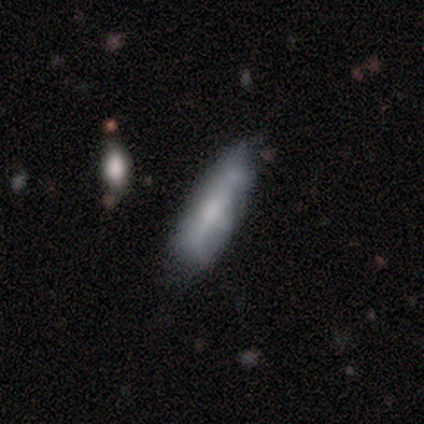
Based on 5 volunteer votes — Smooth or featured? featured or disk (60%)
Edge-on disk? no (67%)
Bar? weak (50%, tied with no)
Spiral arms? yes (50%, tied with no)
Spiral winding? tight (100%)
Spiral arm count? can't tell (100%)
Bulge size? moderate (50%, tied with none)
Merging? minor disturbance (80%)